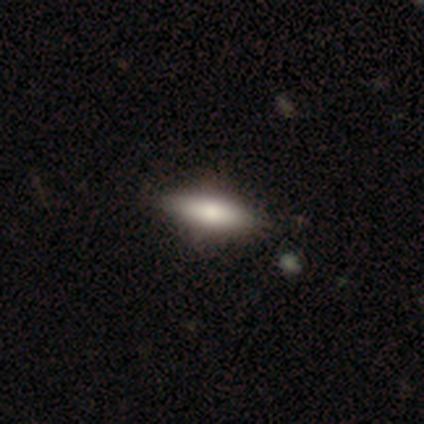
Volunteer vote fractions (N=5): smooth-or-featured: smooth: 80% | star or artifact: 20% | featured or disk: 0%
  how-rounded: cigar-shaped: 75% | in between: 25% | round: 0%
  merging: none: 75% | minor disturbance: 25% | major disturbance: 0% | merger: 0%